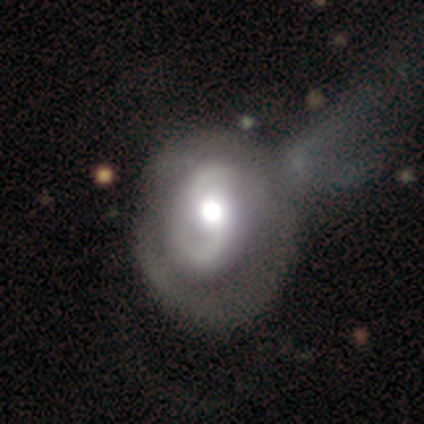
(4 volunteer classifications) Smooth or featured?
  - featured or disk: 75% *
  - smooth: 25%
  - star or artifact: 0%
Edge-on disk?
  - no: 100% *
  - yes: 0%
Bar?
  - weak: 100% *
  - strong: 0%
  - no: 0%
Spiral arms?
  - yes: 67% *
  - no: 33%
Spiral winding?
  - tight: 50% * (tied)
  - loose: 50% * (tied)
  - medium: 0%
Spiral arm count?
  - 1: 50% * (tied)
  - 2: 50% * (tied)
  - 3: 0%
  - 4: 0%
  - more than 4: 0%
  - can't tell: 0%
Bulge size?
  - dominant: 33% * (tied)
  - large: 33% * (tied)
  - moderate: 33% * (tied)
  - small: 0%
  - none: 0%
Merging?
  - none: 50% *
  - minor disturbance: 25%
  - major disturbance: 25%
  - merger: 0%